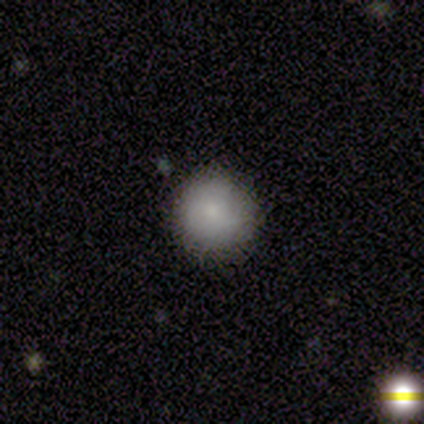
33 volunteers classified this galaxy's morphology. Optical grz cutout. It shows a smooth galaxy with no disk features (79%) that is round (88%). Merging: none (79%).